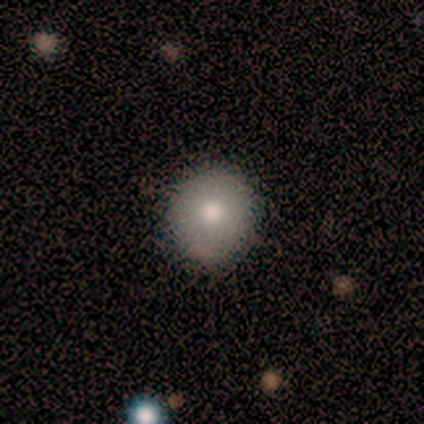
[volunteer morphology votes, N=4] Smooth or featured? 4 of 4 (100%) said smooth. How rounded? 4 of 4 (100%) said round. Merging? 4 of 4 (100%) said none.